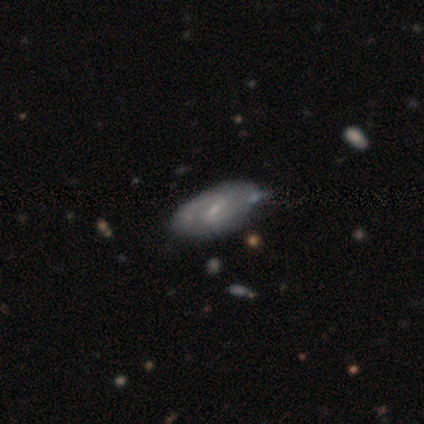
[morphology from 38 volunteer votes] Smooth or featured?
  - featured or disk: 84% *
  - smooth: 11%
  - star or artifact: 5%
Edge-on disk?
  - no: 100% *
  - yes: 0%
Bar?
  - weak: 66% *
  - strong: 22%
  - no: 12%
Spiral arms?
  - yes: 91% *
  - no: 9%
Spiral winding?
  - medium: 66% *
  - tight: 17%
  - loose: 17%
Spiral arm count?
  - 2: 90% *
  - 1: 7%
  - can't tell: 3%
  - 3: 0%
  - 4: 0%
  - more than 4: 0%
Bulge size?
  - small: 69% *
  - moderate: 19%
  - none: 9%
  - dominant: 3%
  - large: 0%
Merging?
  - none: 72% *
  - minor disturbance: 8%
  - merger: 6%
  - major disturbance: 0%